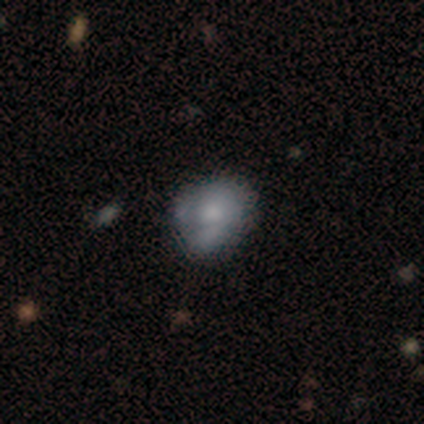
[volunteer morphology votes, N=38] Smooth or featured?
  - smooth: 50% *
  - featured or disk: 45%
  - star or artifact: 5%
How rounded?
  - round: 53% *
  - in between: 47%
  - cigar-shaped: 0%
Merging?
  - none: 50% *
  - minor disturbance: 28%
  - merger: 14%
  - major disturbance: 8%